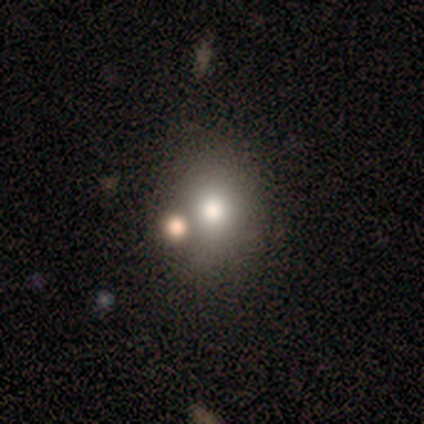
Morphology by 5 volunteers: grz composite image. It shows a smooth galaxy with no disk features (80%) that is round (50%, tied with in between). Merging: none (60%).